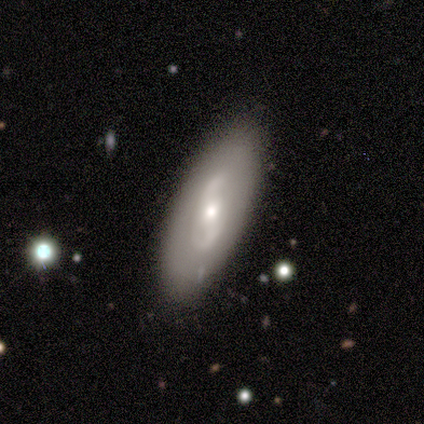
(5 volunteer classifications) Smooth or featured: smooth — 60% (featured or disk — 40%)
How rounded: in between — 100%
Merging: none — 60% (minor disturbance — 40%)